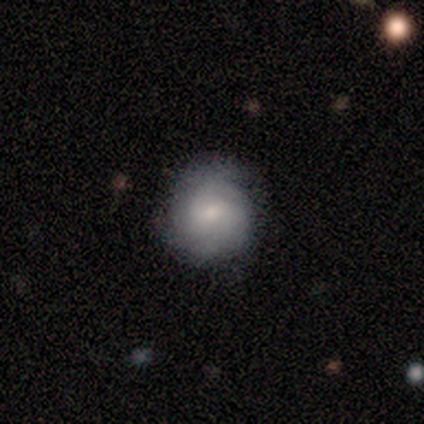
Overall: smooth (67%). How rounded: round (100%). Merging: none (64%; minor disturbance 33%).